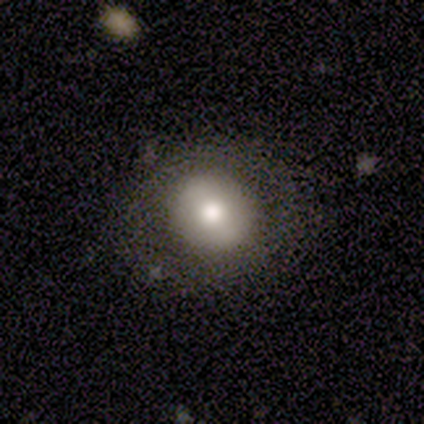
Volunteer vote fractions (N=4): Smooth or featured? smooth (50%, tied with featured or disk)
How rounded? round (50%, tied with in between)
Merging? none (100%)